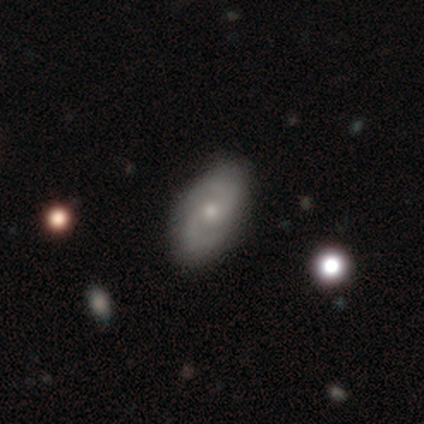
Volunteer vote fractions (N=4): Smooth or featured: featured or disk — 100%
Edge-on disk: no — 100%
Bar: no — 75% (weak — 25%)
Spiral arms: yes — 100%
Spiral winding: medium — 75% (tight — 25%)
Spiral arm count: 2 — 75% (3 — 25%)
Bulge size: moderate — 75% (small — 25%)
Merging: none — 100%